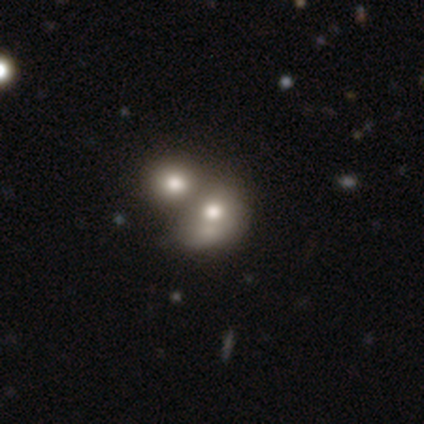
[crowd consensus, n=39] Smooth or featured: smooth — 51% (featured or disk — 33%)
How rounded: round — 50% (tied with in between — 50%)
Merging: merger — 70% (none — 18%)